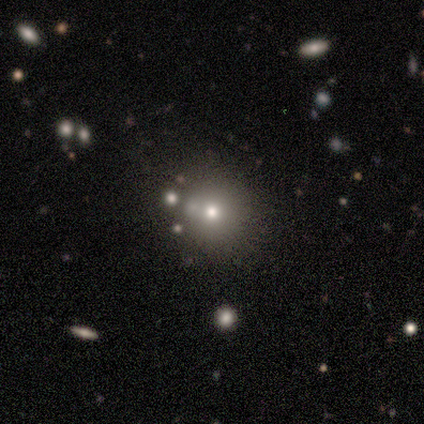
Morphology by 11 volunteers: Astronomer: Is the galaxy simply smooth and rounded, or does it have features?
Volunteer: smooth — 64%.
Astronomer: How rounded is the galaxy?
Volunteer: round — 86%.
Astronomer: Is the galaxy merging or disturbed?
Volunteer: none — 62%.